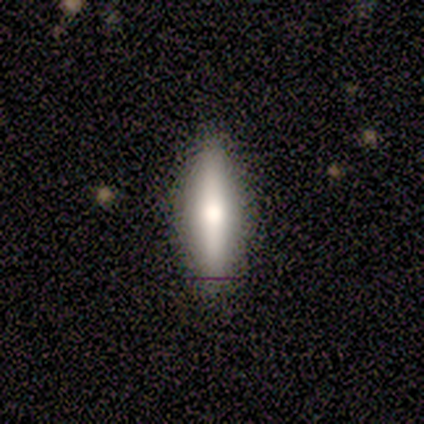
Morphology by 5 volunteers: Smooth or featured?
  - smooth: 40% * (tied)
  - featured or disk: 40% * (tied)
  - star or artifact: 20%
How rounded?
  - cigar-shaped: 100% *
  - round: 0%
  - in between: 0%
Merging?
  - none: 100% *
  - minor disturbance: 0%
  - major disturbance: 0%
  - merger: 0%